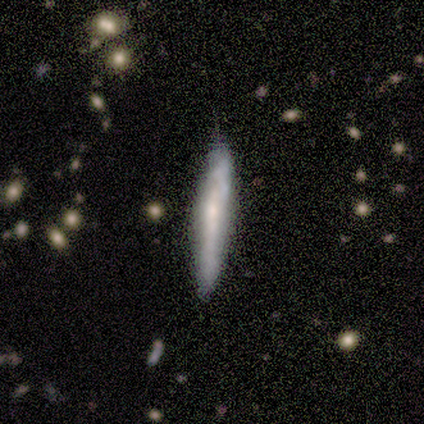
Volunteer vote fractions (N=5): This is likely a smooth galaxy (60%). How rounded: clearly cigar-shaped (100%). Merging: likely none (60%).